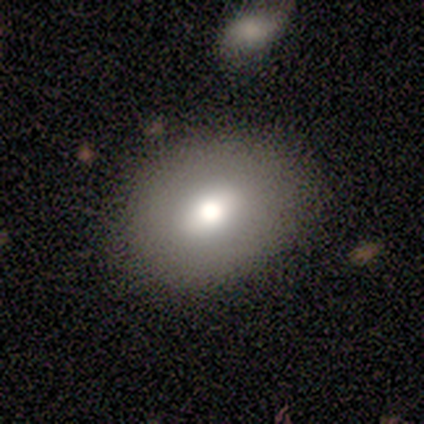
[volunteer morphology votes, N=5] smooth_or_featured: smooth (p=0.80) [alt: featured or disk p=0.20]
how_rounded: round (p=0.50) [tied with: in between p=0.50]
merging: none (p=0.60) [alt: major disturbance p=0.40]